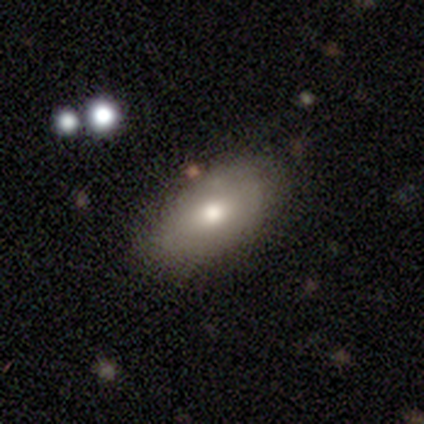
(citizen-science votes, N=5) A smooth galaxy with no disk features (100%) that is in between round and cigar-shaped (80%). Merging: none (100%).